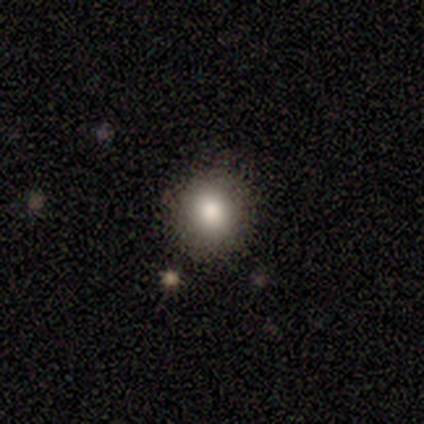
smooth-or-featured: smooth: 64% | featured or disk: 18% | star or artifact: 18%
  how-rounded: round: 100% | in between: 0% | cigar-shaped: 0%
  merging: none: 78% | minor disturbance: 22% | major disturbance: 0% | merger: 0%